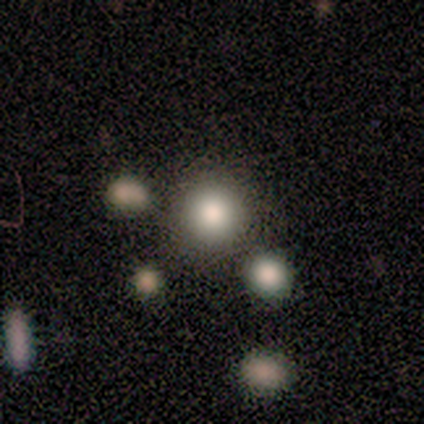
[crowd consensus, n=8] smooth-or-featured: smooth: 100% | featured or disk: 0% | star or artifact: 0%
  how-rounded: round: 75% | in between: 25% | cigar-shaped: 0%
  merging: none: 100% | minor disturbance: 0% | major disturbance: 0% | merger: 0%